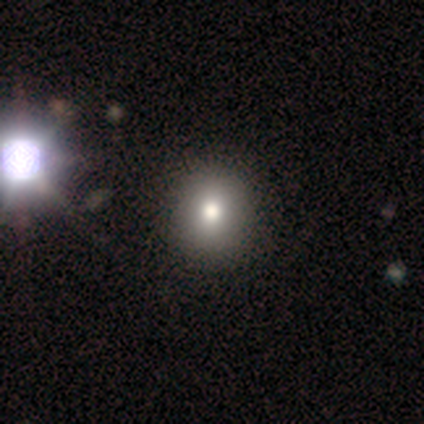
A smooth galaxy with no disk features (79%) that is round (71%). Merging: none (66%).